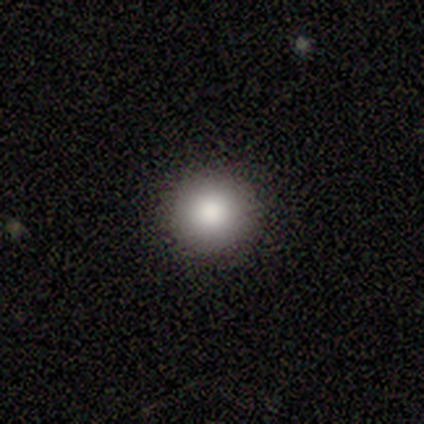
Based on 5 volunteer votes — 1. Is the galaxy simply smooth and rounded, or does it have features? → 80% smooth, 20% star or artifact, 0% featured or disk.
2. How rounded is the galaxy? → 100% round, 0% in between, 0% cigar-shaped.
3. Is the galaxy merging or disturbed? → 100% none, 0% minor disturbance, 0% major disturbance, 0% merger.